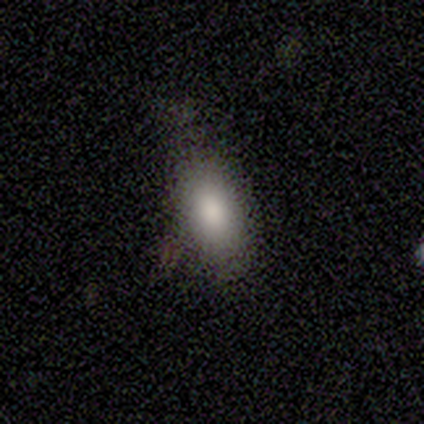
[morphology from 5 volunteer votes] smooth_or_featured: smooth (p=1.00)
how_rounded: in between (p=1.00)
merging: none (p=0.80) [alt: minor disturbance p=0.20]